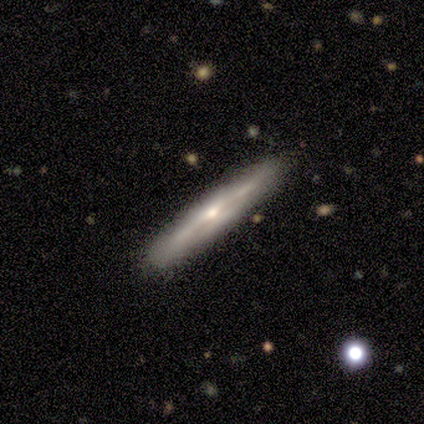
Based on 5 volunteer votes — Smooth or featured? 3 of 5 (60%) said featured or disk. Edge-on disk? 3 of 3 (100%) said yes. Edge-on bulge? 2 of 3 (67%) said rounded. Merging? 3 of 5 (60%) said none.